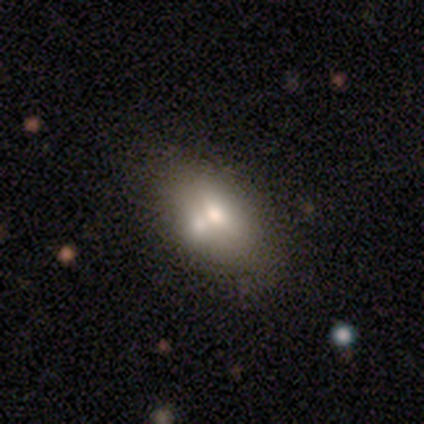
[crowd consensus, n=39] This appears to be a smooth galaxy with no disk features (72%) that is in between round and cigar-shaped (89%). Merging: merger (57%).